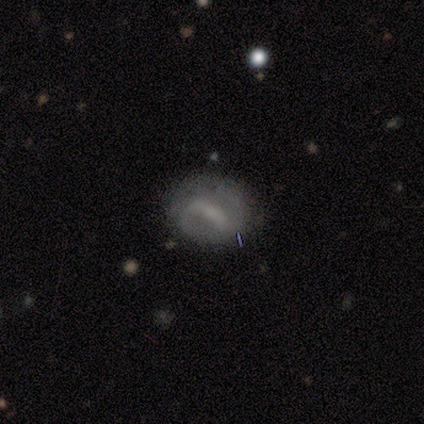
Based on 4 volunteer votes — smooth-or-featured: smooth: 50% (tied) | featured or disk: 50% (tied) | star or artifact: 0%
  how-rounded: round: 50% (tied) | in between: 50% (tied) | cigar-shaped: 0%
  merging: none: 75% | major disturbance: 25% | minor disturbance: 0% | merger: 0%